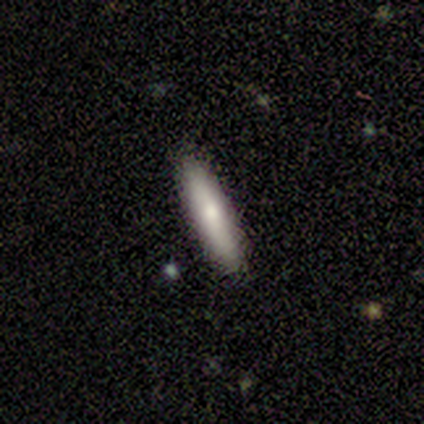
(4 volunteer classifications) A smooth galaxy with no disk features (75%) that is cigar-shaped (100%).

Vote fractions:
- Smooth or featured? smooth: 75% / featured or disk: 25% / star or artifact: 0%
- How rounded? cigar-shaped: 100% / round: 0% / in between: 0%
- Merging? none: 100% / minor disturbance: 0% / major disturbance: 0% / merger: 0%